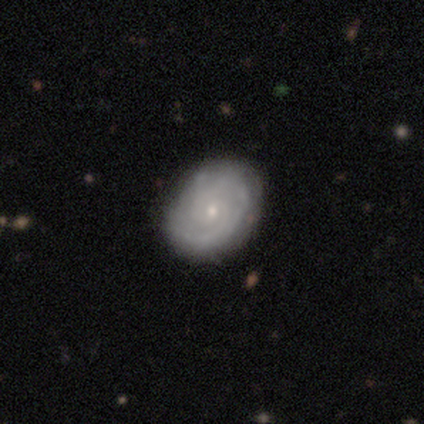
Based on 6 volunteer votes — smooth_or_featured: featured or disk (p=0.67) [alt: smooth p=0.17]
disk_edge_on: no (p=1.00)
bar: no (p=0.75) [alt: weak p=0.25]
has_spiral_arms: yes (p=0.75) [alt: no p=0.25]
spiral_winding: tight (p=0.67) [alt: medium p=0.33]
spiral_arm_count: 2 (p=0.33) [tied with: 3 p=0.33, can't tell p=0.33]
bulge_size: small (p=0.75) [alt: none p=0.25]
merging: none (p=0.80) [alt: minor disturbance p=0.20]